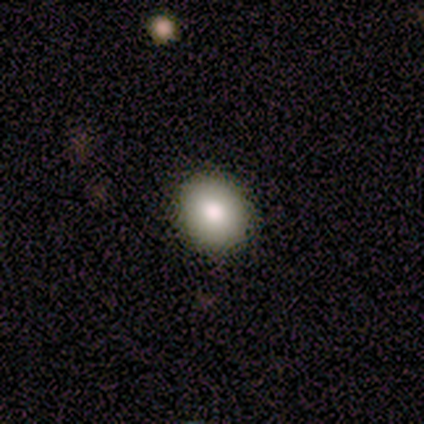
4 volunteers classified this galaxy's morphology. smooth-or-featured: smooth: 75% | star or artifact: 25% | featured or disk: 0%
  how-rounded: round: 67% | in between: 33% | cigar-shaped: 0%
  merging: none: 100% | minor disturbance: 0% | major disturbance: 0% | merger: 0%